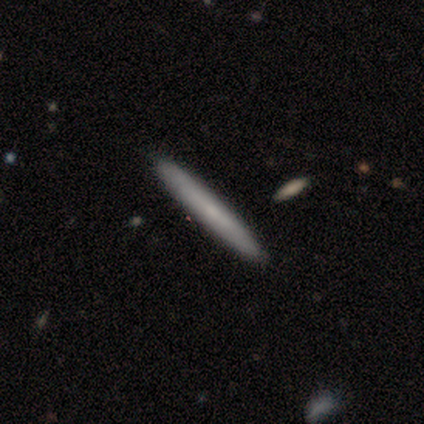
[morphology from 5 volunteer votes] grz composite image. It shows a smooth galaxy with no disk features (60%) that is cigar-shaped (67%). Merging: none (75%).